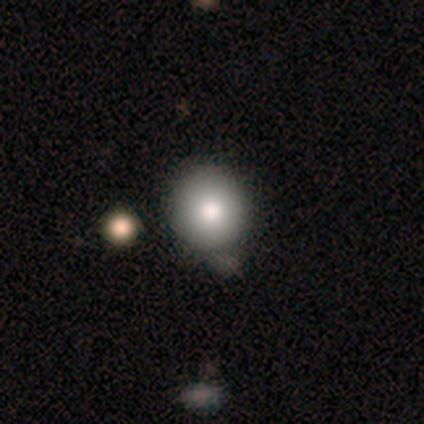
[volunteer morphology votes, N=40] Q: Smooth or featured?
A: smooth (88%); runner-up: star or artifact (8%)
Q: How rounded?
A: round (89%); runner-up: in between (11%)
Q: Merging?
A: none (35%); runner-up: minor disturbance (24%)